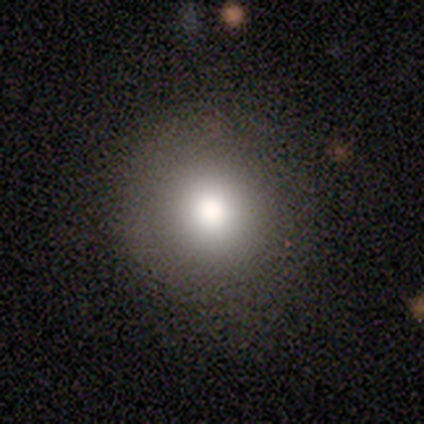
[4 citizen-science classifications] Volunteers were most divided on "smooth or featured" (2-way tie): smooth: 50%, star or artifact: 50%, featured or disk: 0%. More confident: how rounded — round (100%); merging — none (100%).